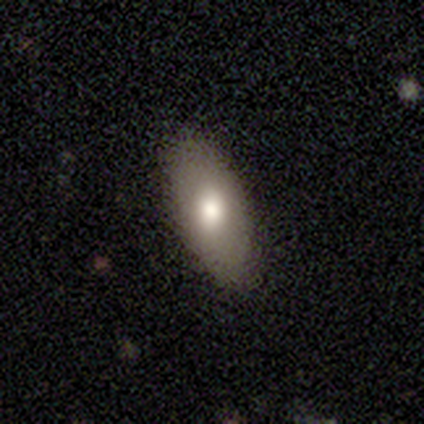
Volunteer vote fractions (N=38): Smooth or featured? 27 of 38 (71%) said smooth. How rounded? 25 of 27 (93%) said in between. Merging? 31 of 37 (84%) said none.